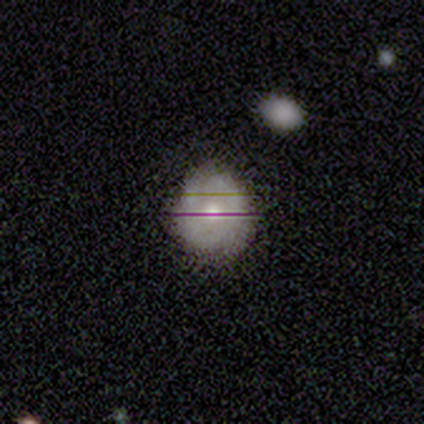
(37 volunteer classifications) This appears to be a smooth galaxy with no disk features (43%) that is round (94%). Merging: none (85%).